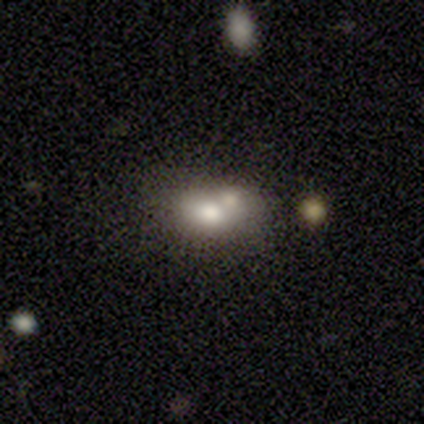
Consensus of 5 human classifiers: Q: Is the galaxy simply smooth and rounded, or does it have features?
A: smooth — 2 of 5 (40%, tied with star or artifact).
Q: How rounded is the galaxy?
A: round — 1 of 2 (50%, tied with in between).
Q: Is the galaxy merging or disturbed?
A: none — 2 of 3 (67%).